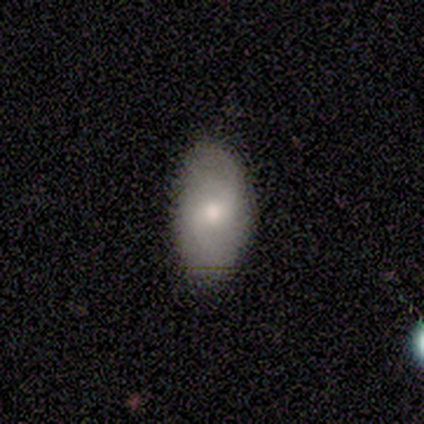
Overall: smooth (74%). How rounded: in between (100%). Merging: none (95%).